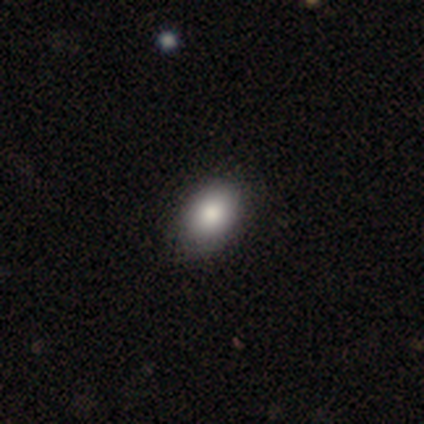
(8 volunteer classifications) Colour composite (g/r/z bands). It shows a smooth galaxy with no disk features (100%) that is in between round and cigar-shaped (62%). Merging: none (75%).